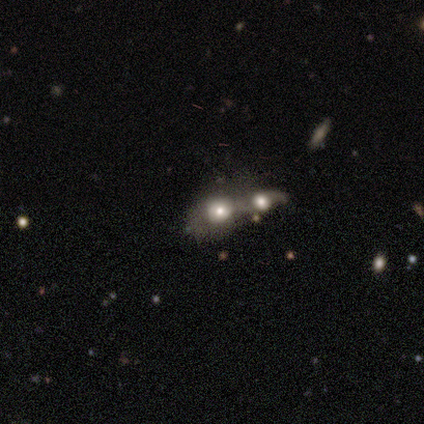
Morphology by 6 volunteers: smooth_or_featured: featured or disk (p=0.50) [alt: smooth p=0.33]
disk_edge_on: no (p=1.00)
bar: no (p=1.00)
has_spiral_arms: no (p=1.00)
bulge_size: large (p=0.67) [alt: moderate p=0.33]
merging: merger (p=0.80) [alt: major disturbance p=0.20]